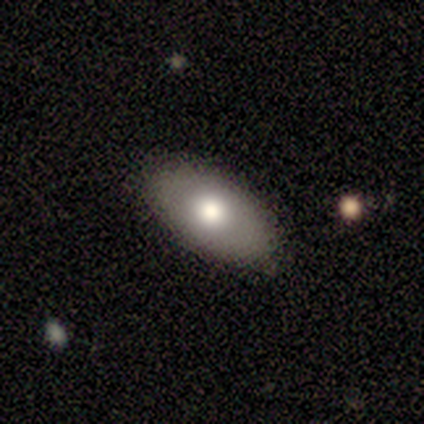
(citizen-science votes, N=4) Smooth or featured: smooth — 100%
How rounded: in between — 100%
Merging: none — 75% (minor disturbance — 25%)